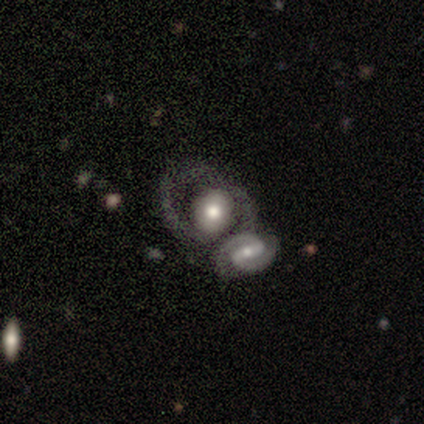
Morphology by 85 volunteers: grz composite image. It shows a featured or disk galaxy (67%) with no bar (43%), 2 (88%) medium (55%) spiral arms (78%) and a moderate central bulge (55%). Merging: merger (62%).